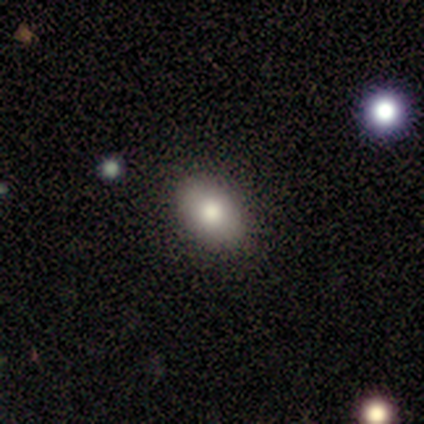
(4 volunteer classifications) Overall: smooth (75%). How rounded: in between (100%). Merging: none (100%).